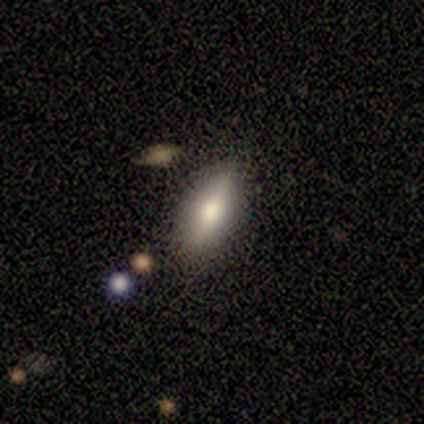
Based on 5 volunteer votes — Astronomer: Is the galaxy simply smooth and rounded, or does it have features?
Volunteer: smooth — 60% (runner-up: featured or disk, 40%).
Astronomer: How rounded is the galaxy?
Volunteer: in between — 67%.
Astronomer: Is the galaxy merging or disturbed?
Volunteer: none — 60% (runner-up: minor disturbance, 40%).